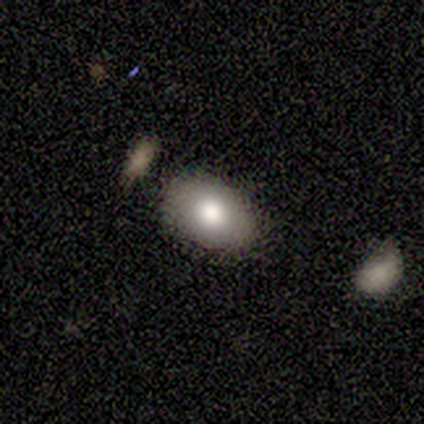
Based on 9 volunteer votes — A smooth galaxy with no disk features (89%) that is in between round and cigar-shaped (75%).

Vote fractions:
- Smooth or featured? smooth: 89% / featured or disk: 11% / star or artifact: 0%
- How rounded? in between: 75% / round: 25% / cigar-shaped: 0%
- Merging? none: 100% / minor disturbance: 0% / major disturbance: 0% / merger: 0%